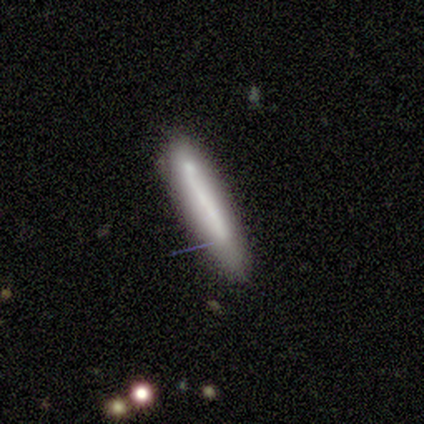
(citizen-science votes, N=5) Morphology: type=featured or disk (60%); edge-on=yes (67%); edge-on bulge=none (100%); merging=none (100%).